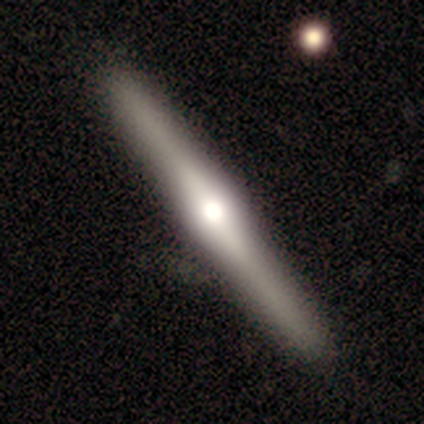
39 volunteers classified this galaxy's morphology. Smooth or featured? 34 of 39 (87%) said featured or disk. Edge-on disk? 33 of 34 (97%) said yes. Edge-on bulge? 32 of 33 (97%) said rounded. Merging? 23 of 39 (59%) said none.